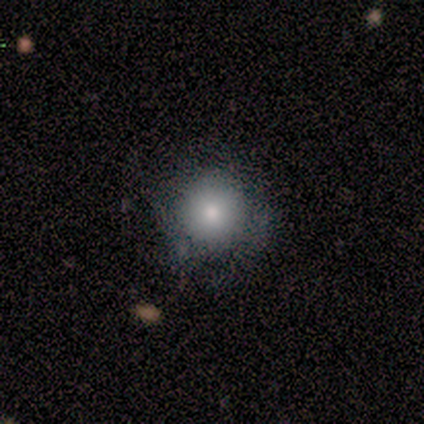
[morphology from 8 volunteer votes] Smooth or featured? 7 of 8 (88%) said smooth. How rounded? 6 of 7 (86%) said round. Merging? 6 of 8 (75%) said none.